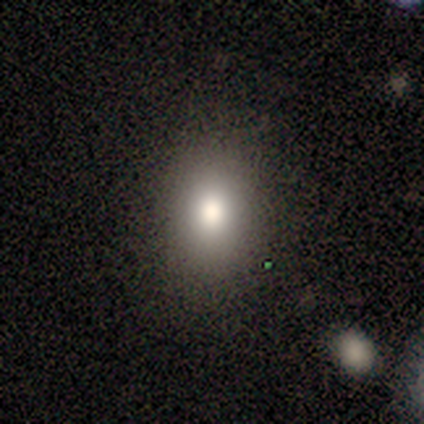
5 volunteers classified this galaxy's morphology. Smooth or featured: smooth — 80% (star or artifact — 20%)
How rounded: in between — 100%
Merging: none — 75% (minor disturbance — 25%)